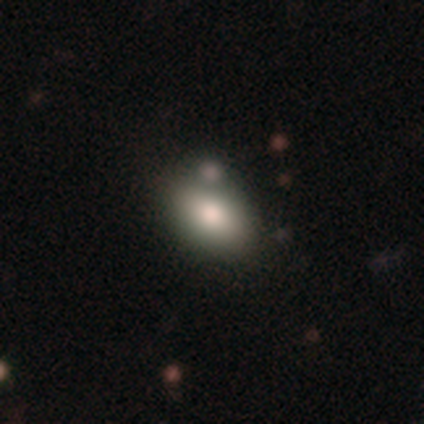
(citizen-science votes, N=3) This appears to be a smooth galaxy with no disk features (100%) that is in between round and cigar-shaped (100%). Merging: none (100%).